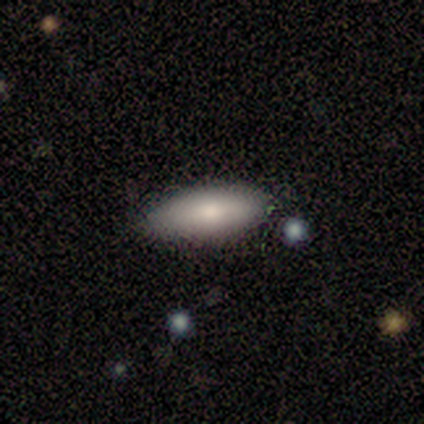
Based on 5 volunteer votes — This is likely a smooth galaxy (60%). How rounded: clearly in between (100%). Merging: clearly none (100%).